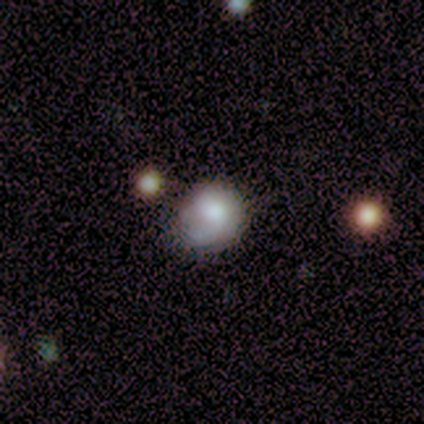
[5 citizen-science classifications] Smooth or featured?
  - smooth: 80% *
  - featured or disk: 20%
  - star or artifact: 0%
How rounded?
  - round: 100% *
  - in between: 0%
  - cigar-shaped: 0%
Merging?
  - none: 40% * (tied)
  - minor disturbance: 40% * (tied)
  - major disturbance: 20%
  - merger: 0%